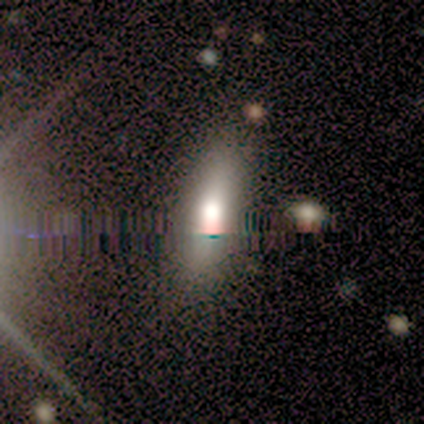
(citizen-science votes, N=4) A smooth galaxy with no disk features (50%) that is round (50%, tied with in between).

Vote fractions:
- Smooth or featured? smooth: 50% / featured or disk: 25% / star or artifact: 25%
- How rounded? round: 50% (tied) / in between: 50% (tied) / cigar-shaped: 0%
- Merging? none: 67% / minor disturbance: 33% / major disturbance: 0% / merger: 0%